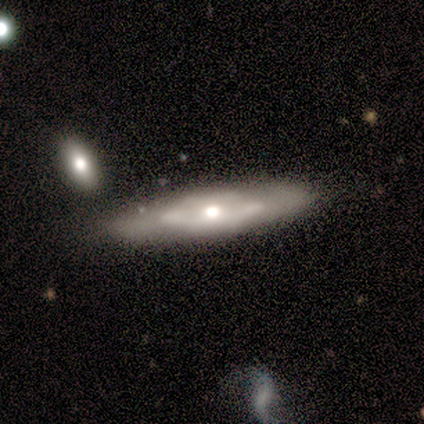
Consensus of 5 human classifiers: smooth-or-featured: featured or disk: 60% | smooth: 40% | star or artifact: 0%
  disk-edge-on: yes: 100% | no: 0%
    edge-on-bulge: rounded: 67% | boxy: 33% | none: 0%
  merging: none: 60% | minor disturbance: 40% | major disturbance: 0% | merger: 0%